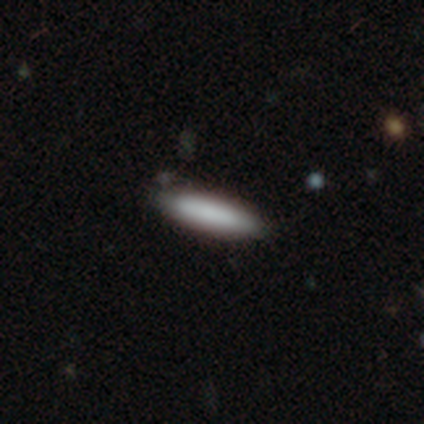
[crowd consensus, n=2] This appears to be a smooth galaxy with no disk features (100%) that is in between round and cigar-shaped (50%, tied with cigar-shaped). Merging: none (100%).